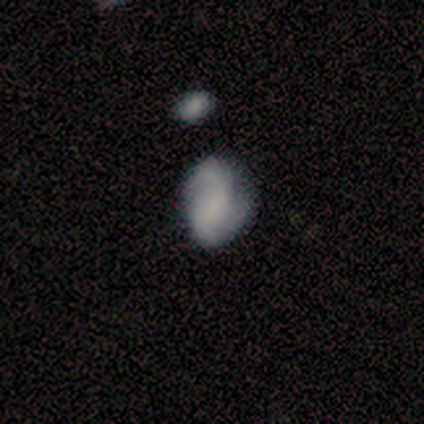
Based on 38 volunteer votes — A smooth galaxy with no disk features (50%) that is in between round and cigar-shaped (74%).

Vote fractions:
- Smooth or featured? smooth: 50% / featured or disk: 39% / star or artifact: 11%
- How rounded? in between: 74% / round: 26% / cigar-shaped: 0%
- Merging? none: 50% / minor disturbance: 29% / major disturbance: 15% / merger: 6%